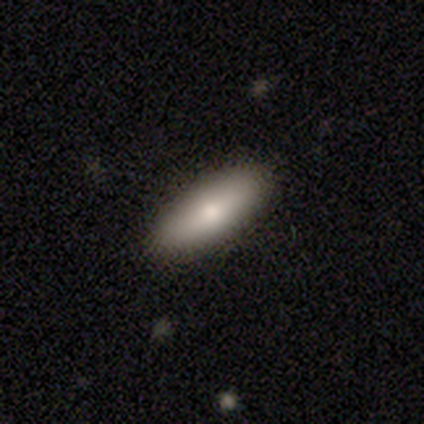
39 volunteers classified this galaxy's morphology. Q: Smooth or featured?
A: smooth (82%); runner-up: featured or disk (13%)
Q: How rounded?
A: in between (66%); runner-up: cigar-shaped (34%)
Q: Merging?
A: none (95%); runner-up: minor disturbance (5%)